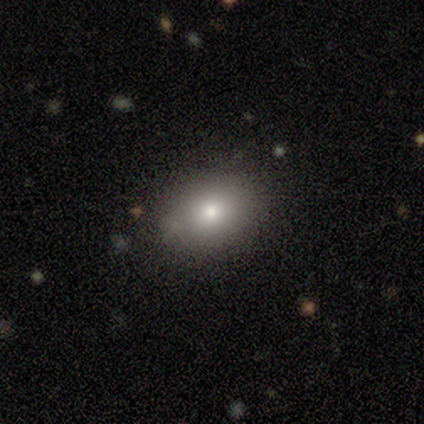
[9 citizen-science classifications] smooth_or_featured: smooth (p=0.44) [alt: featured or disk p=0.33]
how_rounded: in between (p=1.00)
merging: none (p=1.00)